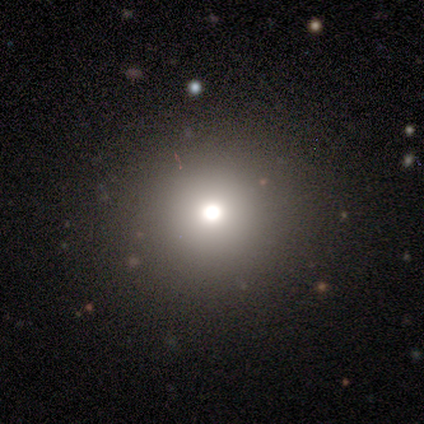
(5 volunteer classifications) smooth 40% (tied), star or artifact 40% (tied), featured or disk 20%. Down the decision tree: how rounded — round (100%); merging — none (67%).